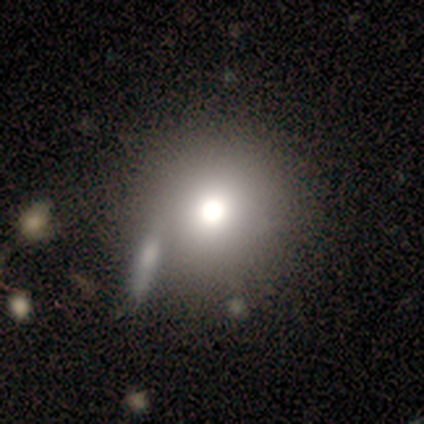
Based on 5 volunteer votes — Smooth or featured? 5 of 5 (100%) said smooth. How rounded? 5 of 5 (100%) said round. Merging? 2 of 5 (40%, tied with minor disturbance) said none.